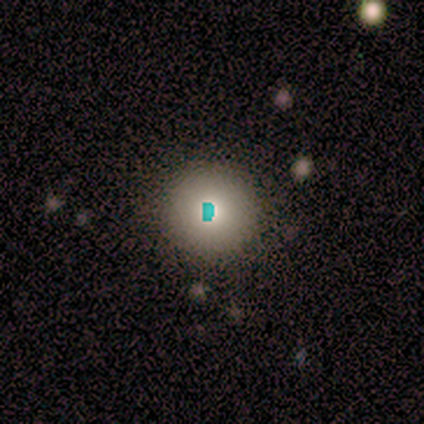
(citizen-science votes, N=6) Smooth or featured?
  - star or artifact: 50% *
  - smooth: 33%
  - featured or disk: 17%